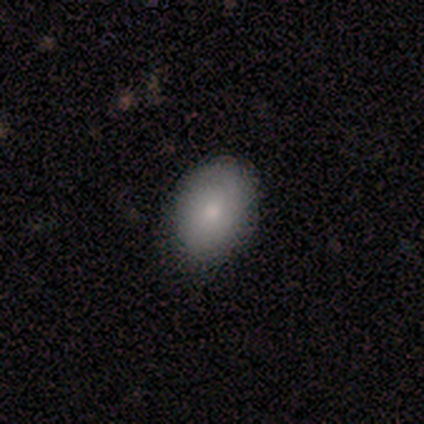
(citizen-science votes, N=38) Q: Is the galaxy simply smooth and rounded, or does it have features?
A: smooth — 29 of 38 (76%).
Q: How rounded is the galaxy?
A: in between — 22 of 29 (76%).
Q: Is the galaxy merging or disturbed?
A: none — 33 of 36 (92%).